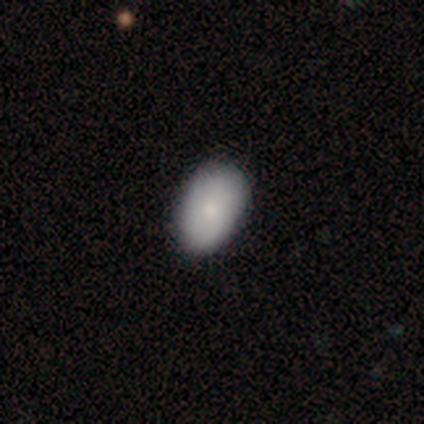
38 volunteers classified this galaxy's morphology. type=smooth (68%); roundness=in between (85%); merging=none (62%).